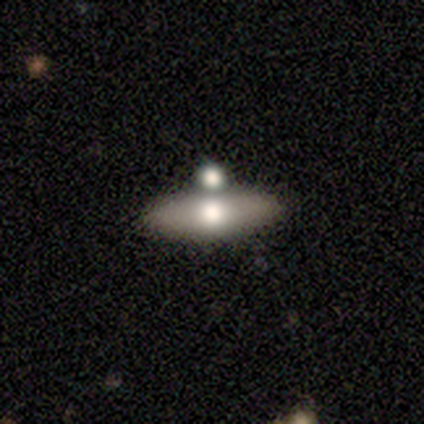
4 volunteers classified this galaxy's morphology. Overall: smooth (50%; featured or disk 25%). How rounded: in between (100%). Merging: merger (67%; none 33%).